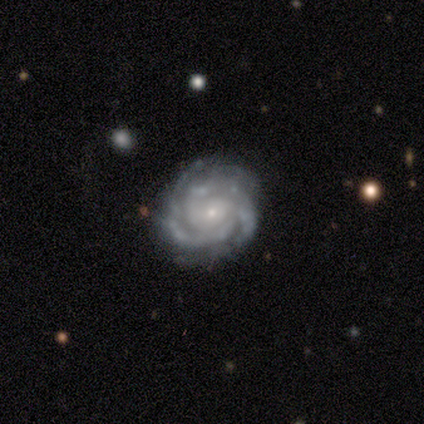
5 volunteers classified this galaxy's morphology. smooth-or-featured: featured or disk: 100% | smooth: 0% | star or artifact: 0%
  disk-edge-on: no: 100% | yes: 0%
    bar: no: 100% | strong: 0% | weak: 0%
    has-spiral-arms: yes: 100% | no: 0%
      spiral-winding: tight: 80% | loose: 20% | medium: 0%
      spiral-arm-count: 3: 80% | 4: 20% | 1: 0% | 2: 0% | more than 4: 0% | can't tell: 0%
    bulge-size: small: 100% | dominant: 0% | large: 0% | moderate: 0% | none: 0%
  merging: none: 100% | minor disturbance: 0% | major disturbance: 0% | merger: 0%